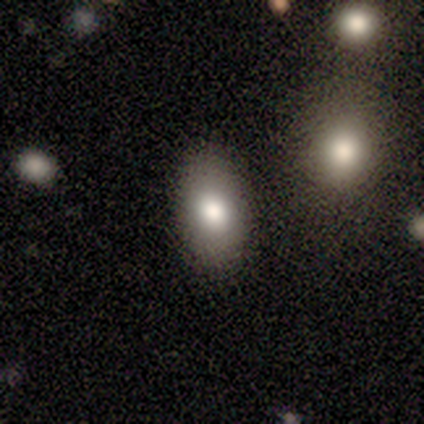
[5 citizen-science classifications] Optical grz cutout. It shows a smooth galaxy with no disk features (80%) that is in between round and cigar-shaped (75%). Merging: none (75%).